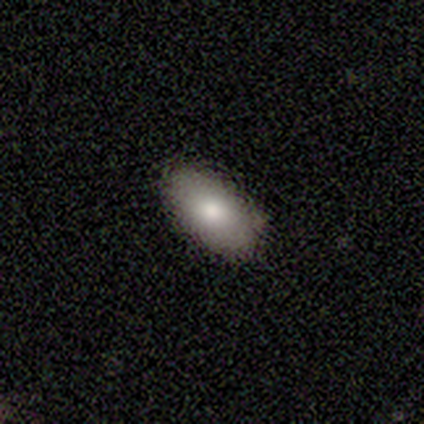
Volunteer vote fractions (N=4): This is likely a smooth galaxy (75%). How rounded: clearly in between (100%). Merging: likely none (67%).